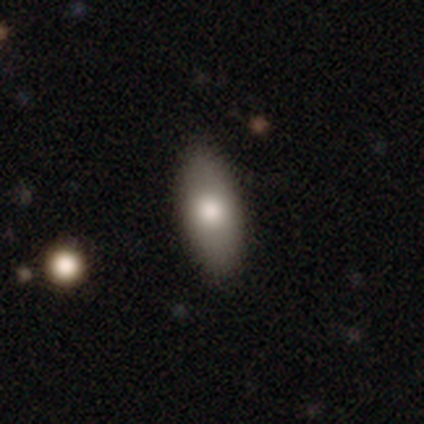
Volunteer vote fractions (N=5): Morphology: type=smooth (100%); roundness=in between (80%); merging=none (80%).